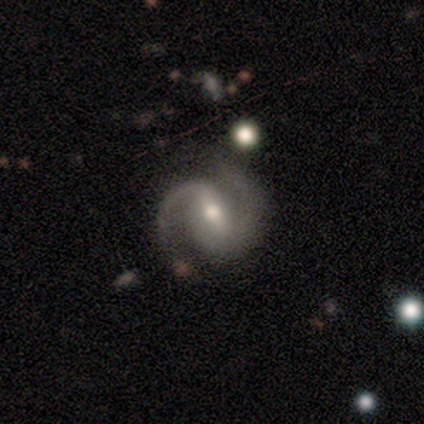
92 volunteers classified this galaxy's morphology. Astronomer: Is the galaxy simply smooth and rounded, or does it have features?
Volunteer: featured or disk — 92%.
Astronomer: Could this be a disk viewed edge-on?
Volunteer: no — 98%.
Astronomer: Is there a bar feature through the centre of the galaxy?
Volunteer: weak — 51% (runner-up: strong, 42%).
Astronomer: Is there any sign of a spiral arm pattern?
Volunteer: yes — 98%.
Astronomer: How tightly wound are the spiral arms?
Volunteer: medium — 62%.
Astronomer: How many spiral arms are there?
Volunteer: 2 — 96%.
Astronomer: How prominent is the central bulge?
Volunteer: moderate — 75%.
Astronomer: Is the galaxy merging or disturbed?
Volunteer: none — 73%.